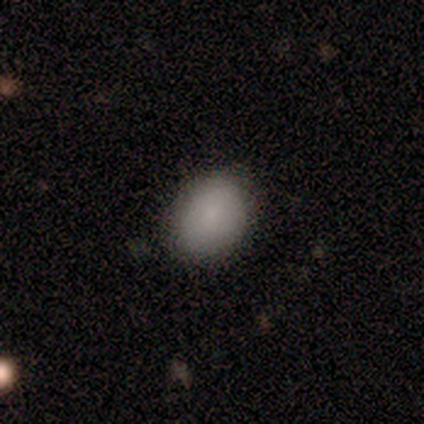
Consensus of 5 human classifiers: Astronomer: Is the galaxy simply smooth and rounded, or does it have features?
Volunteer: smooth — 100%.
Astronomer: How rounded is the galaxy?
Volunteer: in between — 60% (runner-up: round, 40%).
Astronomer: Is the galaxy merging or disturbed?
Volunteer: none — 100%.